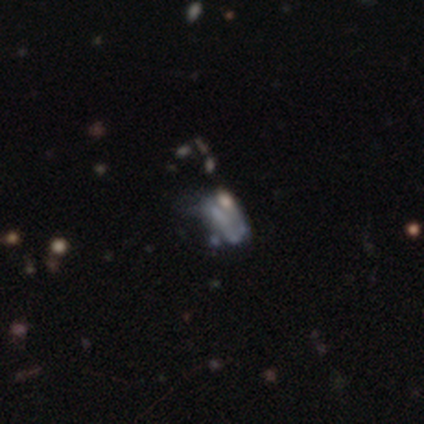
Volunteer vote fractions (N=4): smooth_or_featured: star or artifact (p=0.50) [alt: smooth p=0.25]